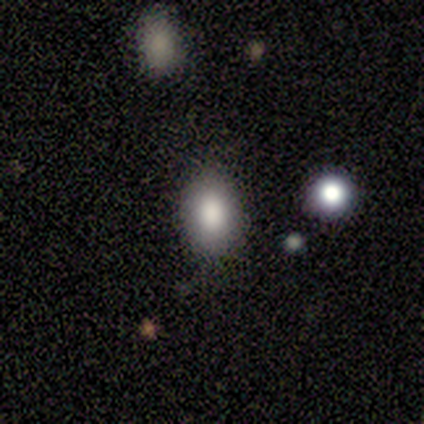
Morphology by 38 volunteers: smooth 82%, star or artifact 11%, featured or disk 8%. Down the decision tree: how rounded — in between (84%); merging — none (91%).